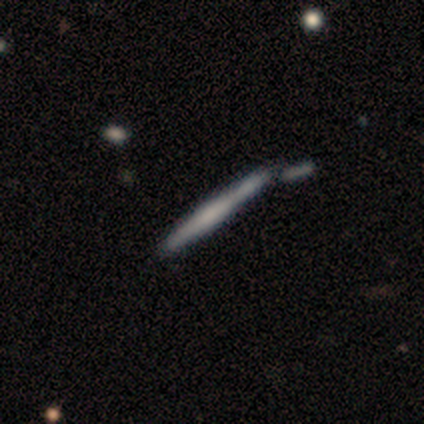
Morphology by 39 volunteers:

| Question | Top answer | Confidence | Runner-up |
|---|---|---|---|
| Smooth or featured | featured or disk | 67% | smooth (33%) |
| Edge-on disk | yes | 100% | — |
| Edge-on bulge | boxy | 46% | rounded (42%) |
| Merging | merger | 36% | none (28%) |